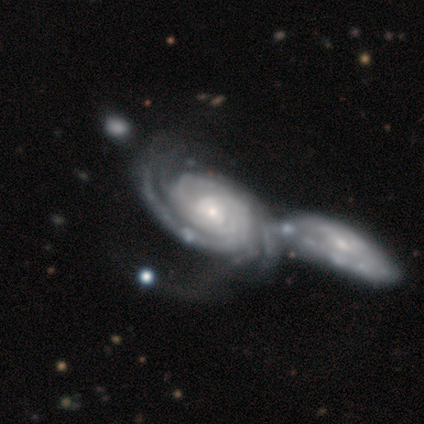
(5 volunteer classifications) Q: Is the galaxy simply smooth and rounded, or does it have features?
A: featured or disk — 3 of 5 (60%).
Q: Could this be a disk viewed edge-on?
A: no — 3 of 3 (100%).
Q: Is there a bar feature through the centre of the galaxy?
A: no — 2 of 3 (67%).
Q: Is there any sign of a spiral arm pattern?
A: yes — 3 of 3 (100%).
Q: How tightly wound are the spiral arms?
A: tight — 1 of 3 (33%, tied with medium and loose).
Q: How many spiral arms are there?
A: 2 — 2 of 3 (67%).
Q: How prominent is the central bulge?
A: large — 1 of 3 (33%, tied with moderate and none).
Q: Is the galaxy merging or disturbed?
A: merger — 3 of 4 (75%).